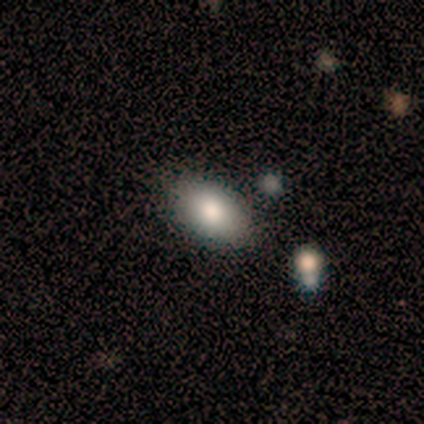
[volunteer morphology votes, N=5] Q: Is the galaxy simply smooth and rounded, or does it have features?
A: smooth — 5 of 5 (100%).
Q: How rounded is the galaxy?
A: in between — 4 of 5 (80%).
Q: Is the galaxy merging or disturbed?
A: none — 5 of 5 (100%).